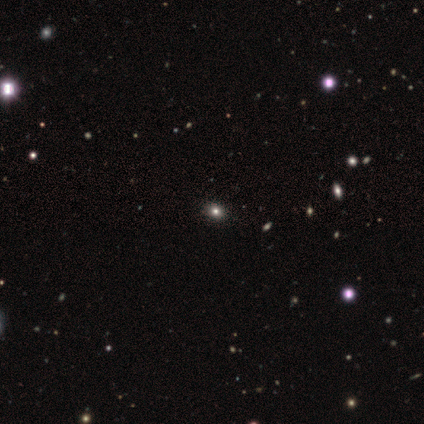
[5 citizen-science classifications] Smooth or featured? 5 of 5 (100%) said smooth. How rounded? 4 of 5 (80%) said round. Merging? 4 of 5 (80%) said none.